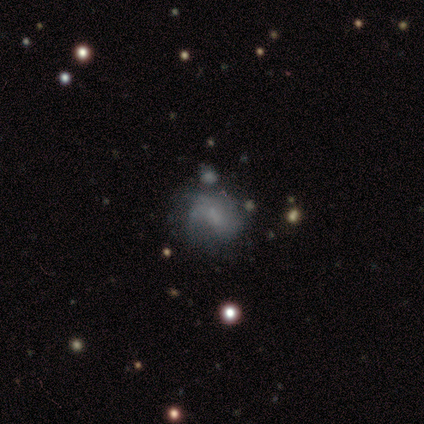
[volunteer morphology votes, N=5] Q: Smooth or featured?
A: smooth (40%); tied with: featured or disk (40%)
Q: How rounded?
A: in between (100%)
Q: Merging?
A: minor disturbance (50%); runner-up: none (25%)